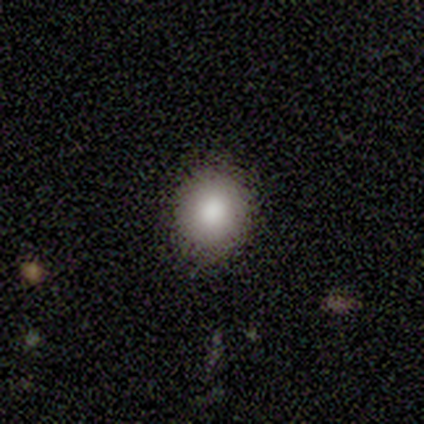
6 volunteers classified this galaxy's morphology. This is clearly a smooth galaxy (83%). How rounded: clearly round (100%). Merging: clearly none (100%).